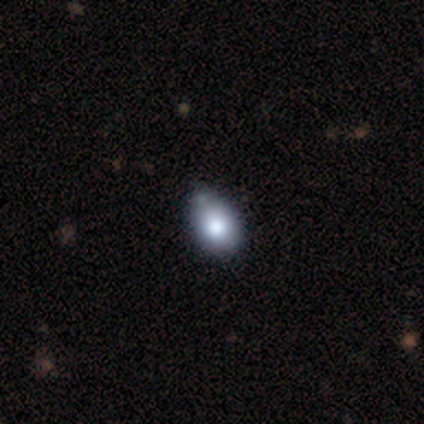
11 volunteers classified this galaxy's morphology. Smooth or featured?
  - smooth: 73% *
  - star or artifact: 18%
  - featured or disk: 9%
How rounded?
  - in between: 88% *
  - round: 12%
  - cigar-shaped: 0%
Merging?
  - none: 67% *
  - minor disturbance: 22%
  - merger: 11%
  - major disturbance: 0%